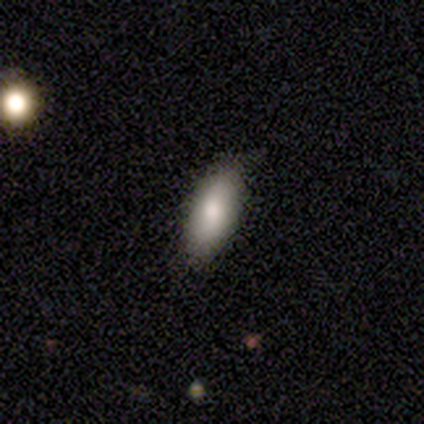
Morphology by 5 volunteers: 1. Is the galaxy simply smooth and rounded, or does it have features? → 60% smooth, 20% featured or disk, 20% star or artifact.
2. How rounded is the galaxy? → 67% cigar-shaped, 33% in between, 0% round.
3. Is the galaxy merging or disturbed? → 75% none, 25% minor disturbance, 0% major disturbance, 0% merger.